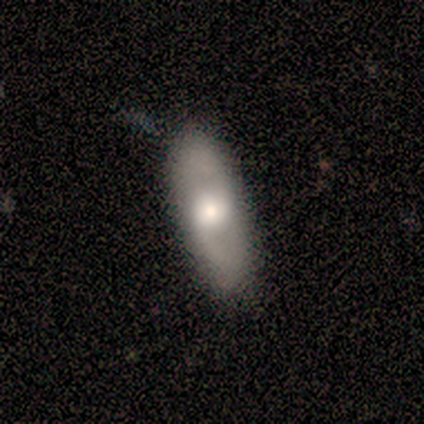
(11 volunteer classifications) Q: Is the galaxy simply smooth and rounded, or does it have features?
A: smooth — 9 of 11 (82%).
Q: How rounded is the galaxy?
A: in between — 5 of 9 (56%).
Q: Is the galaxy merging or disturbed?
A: none — 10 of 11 (91%).